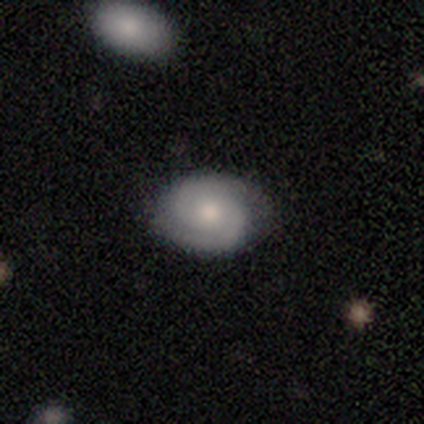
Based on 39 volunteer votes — smooth_or_featured: featured or disk (p=0.74) [alt: smooth p=0.23]
disk_edge_on: no (p=0.90) [alt: yes p=0.10]
bar: no (p=0.73) [alt: weak p=0.23]
has_spiral_arms: yes (p=0.88) [alt: no p=0.12]
spiral_winding: tight (p=0.48) [tied with: medium p=0.48]
spiral_arm_count: 2 (p=0.83) [alt: can't tell p=0.13]
bulge_size: moderate (p=0.58) [alt: small p=0.35]
merging: none (p=0.79) [alt: minor disturbance p=0.18]